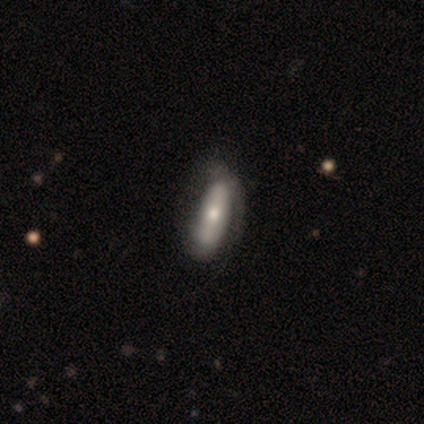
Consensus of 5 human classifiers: Smooth or featured: featured or disk — 60% (smooth — 40%)
Edge-on disk: no — 100%
Bar: no — 67% (strong — 33%)
Spiral arms: yes — 67% (no — 33%)
Spiral winding: tight — 50% (tied with medium — 50%)
Spiral arm count: 1 — 50% (tied with 2 — 50%)
Bulge size: dominant — 33% (tied with moderate — 33%; small — 33%)
Merging: minor disturbance — 40% (tied with major disturbance — 40%)